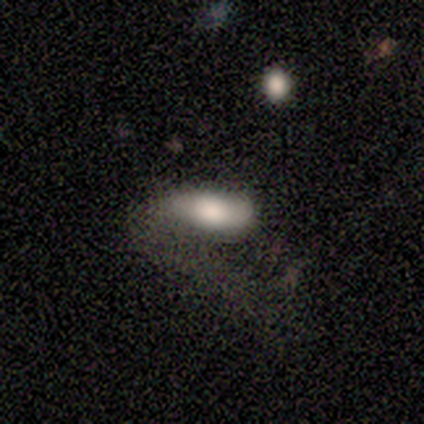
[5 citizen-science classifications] smooth 80%, featured or disk 20%, star or artifact 0%. Down the decision tree: how rounded — in between (100%); merging — none (40%, tied with major disturbance).